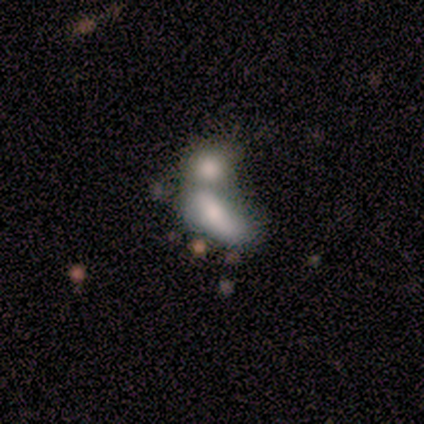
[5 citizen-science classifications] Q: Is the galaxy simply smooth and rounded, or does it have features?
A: smooth — 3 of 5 (60%).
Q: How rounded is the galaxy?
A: in between — 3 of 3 (100%).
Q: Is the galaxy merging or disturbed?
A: merger — 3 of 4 (75%).